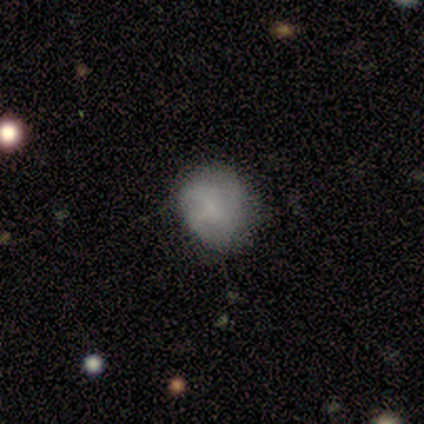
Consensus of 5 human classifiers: Overall: smooth (80%). How rounded: round (50%, tied with in between). Merging: none (50%, tied with minor disturbance).